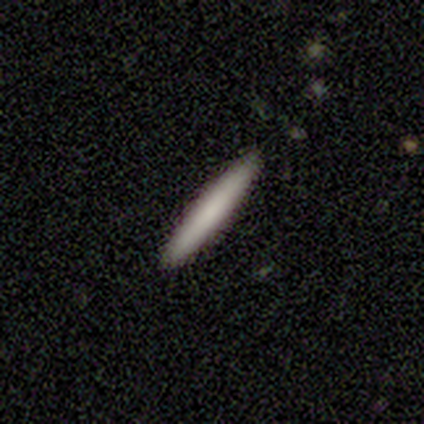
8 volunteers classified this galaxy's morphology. A smooth galaxy with no disk features (50%, tied with featured or disk) that is cigar-shaped (100%).

Vote fractions:
- Smooth or featured? smooth: 50% (tied) / featured or disk: 50% (tied) / star or artifact: 0%
- How rounded? cigar-shaped: 100% / round: 0% / in between: 0%
- Merging? none: 100% / minor disturbance: 0% / major disturbance: 0% / merger: 0%